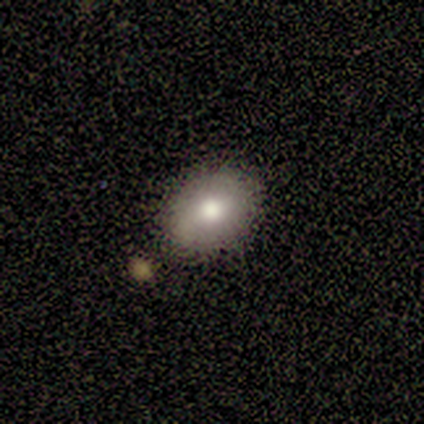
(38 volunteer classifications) This appears to be a smooth galaxy with no disk features (74%) that is in between round and cigar-shaped (75%). Merging: none (74%).